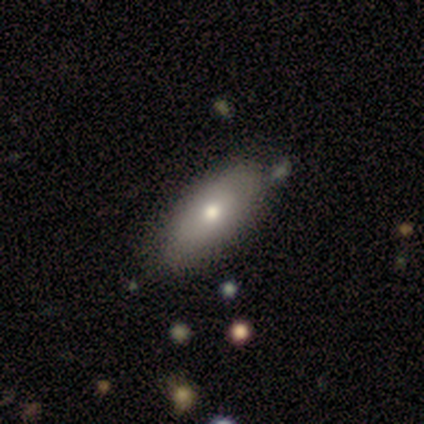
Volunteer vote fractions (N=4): Smooth or featured? smooth (75%)
How rounded? in between (67%)
Merging? none (100%)